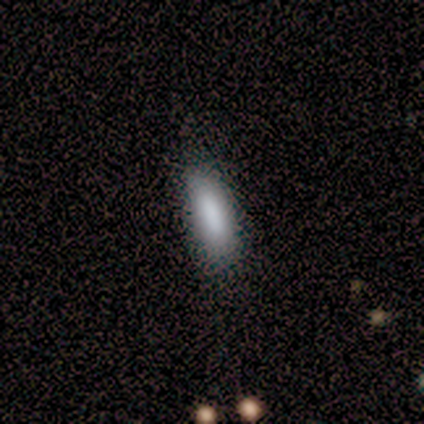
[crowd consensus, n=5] Morphology: type=smooth (80%); roundness=in between (50%); merging=none (75%).